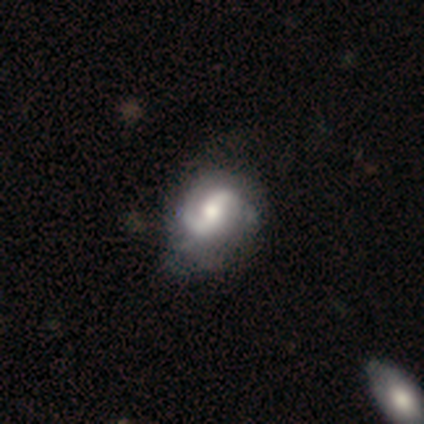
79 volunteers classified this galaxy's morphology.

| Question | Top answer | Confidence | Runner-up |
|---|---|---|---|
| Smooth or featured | featured or disk | 85% | smooth (10%) |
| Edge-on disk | no | 100% | — |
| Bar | weak | 37% | strong (34%) |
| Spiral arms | yes | 94% | no (6%) |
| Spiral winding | medium | 54% | tight (27%) |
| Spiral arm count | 2 | 95% | can't tell (3%) |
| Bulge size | moderate | 61% | small (18%) |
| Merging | none | 33% | minor disturbance (15%) |